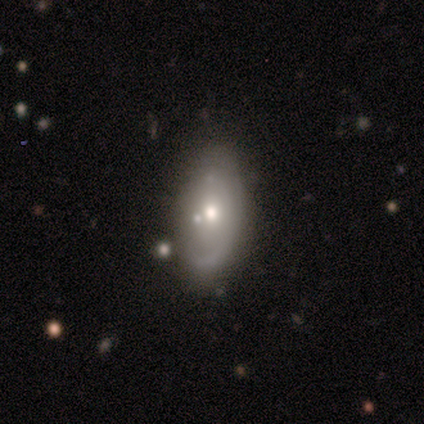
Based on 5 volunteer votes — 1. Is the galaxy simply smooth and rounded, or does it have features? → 80% featured or disk, 20% smooth, 0% star or artifact.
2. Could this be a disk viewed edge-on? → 100% no, 0% yes.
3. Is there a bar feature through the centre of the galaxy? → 75% no, 25% weak, 0% strong.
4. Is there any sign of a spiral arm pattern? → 50% yes (tied), 50% no (tied).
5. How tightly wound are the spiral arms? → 100% tight, 0% medium, 0% loose.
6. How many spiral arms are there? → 100% can't tell, 0% 1, 0% 2, 0% 3, 0% 4, 0% more than 4.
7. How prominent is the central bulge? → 100% moderate, 0% dominant, 0% large, 0% small, 0% none.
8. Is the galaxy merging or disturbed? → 80% minor disturbance, 20% none, 0% major disturbance, 0% merger.